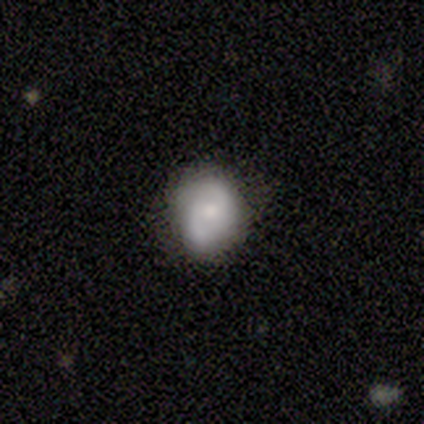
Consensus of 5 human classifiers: smooth-or-featured: smooth: 60% | featured or disk: 20% | star or artifact: 20%
  how-rounded: round: 67% | in between: 33% | cigar-shaped: 0%
  merging: minor disturbance: 75% | none: 25% | major disturbance: 0% | merger: 0%